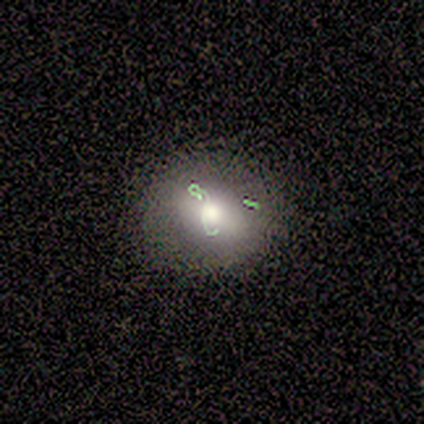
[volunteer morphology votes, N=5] A smooth galaxy with no disk features (60%) that is round (100%). Merging: none (100%).